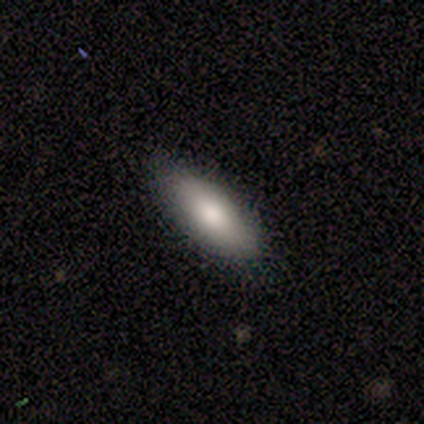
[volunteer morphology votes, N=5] Q: Smooth or featured?
A: smooth (60%); runner-up: featured or disk (20%)
Q: How rounded?
A: in between (100%)
Q: Merging?
A: none (75%); runner-up: minor disturbance (25%)